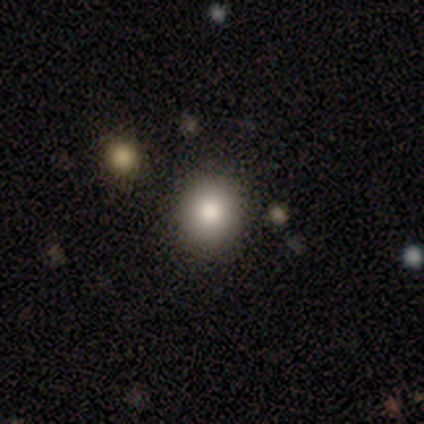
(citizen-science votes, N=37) This is likely a smooth galaxy (76%). How rounded: clearly round (93%). Merging: clearly none (100%).